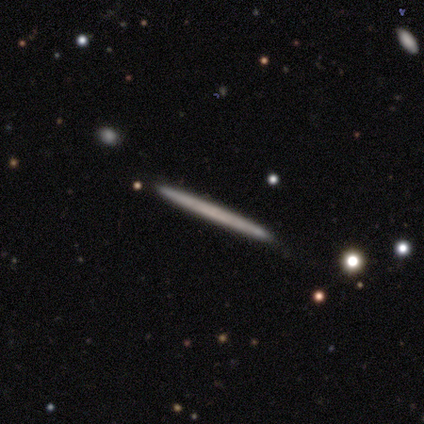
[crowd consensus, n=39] smooth_or_featured: smooth (p=0.46) [alt: featured or disk p=0.44]
how_rounded: cigar-shaped (p=0.83) [alt: in between p=0.11]
merging: none (p=0.97) [alt: merger p=0.03]